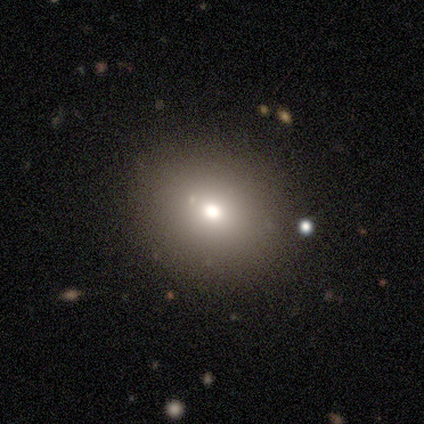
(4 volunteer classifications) Morphology: type=smooth (75%); roundness=round (67%); merging=none (75%).